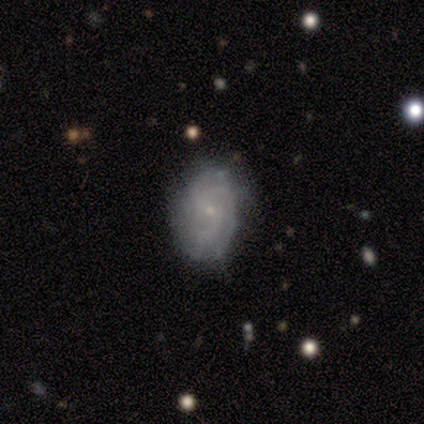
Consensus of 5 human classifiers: Smooth or featured? featured or disk (80%)
Edge-on disk? no (100%)
Bar? no (75%)
Spiral arms? yes (100%)
Spiral winding? tight (75%)
Spiral arm count? 2 (50%, tied with can't tell)
Bulge size? small (100%)
Merging? none (75%)